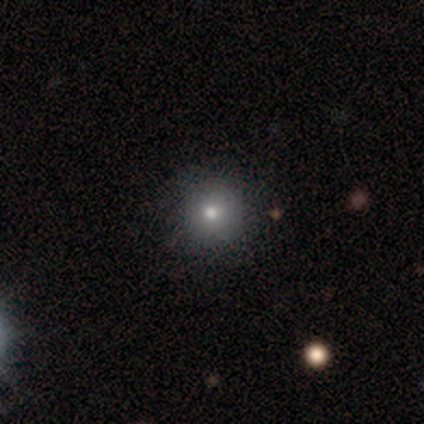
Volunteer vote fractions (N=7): smooth_or_featured: smooth (p=0.71) [alt: star or artifact p=0.29]
how_rounded: round (p=0.80) [alt: in between p=0.20]
merging: none (p=1.00)